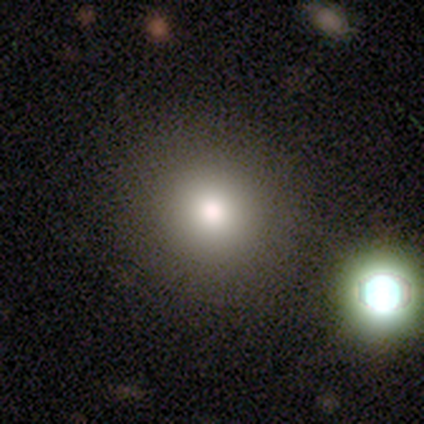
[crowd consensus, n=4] Volunteers were most divided on "smooth or featured": smooth: 75%, star or artifact: 25%, featured or disk: 0%. More confident: how rounded — round (100%); merging — none (100%).